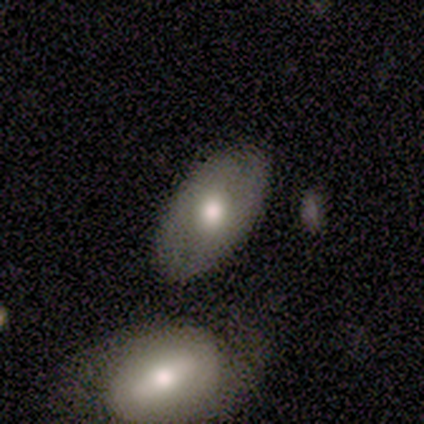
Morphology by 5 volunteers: A smooth galaxy with no disk features (80%) that is in between round and cigar-shaped (100%). Merging: none (80%).